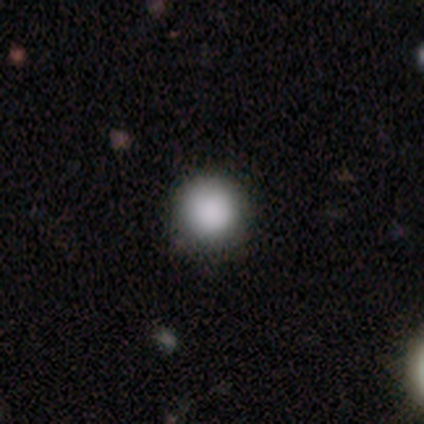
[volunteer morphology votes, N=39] A smooth galaxy with no disk features (85%) that is round (94%). Merging: none (91%).